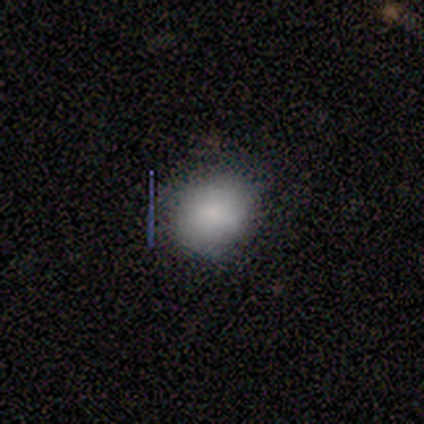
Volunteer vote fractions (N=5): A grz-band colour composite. It shows a smooth galaxy with no disk features (80%) that is round (75%). Merging: none (80%).